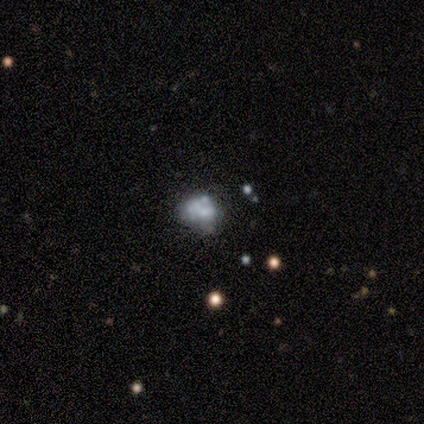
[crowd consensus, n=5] smooth_or_featured: featured or disk (p=0.60) [alt: star or artifact p=0.40]
disk_edge_on: no (p=1.00)
bar: no (p=0.67) [alt: weak p=0.33]
has_spiral_arms: no (p=1.00)
bulge_size: small (p=0.67) [alt: none p=0.33]
merging: major disturbance (p=0.67) [alt: merger p=0.33]